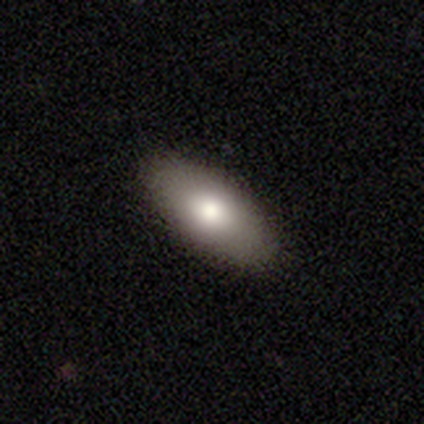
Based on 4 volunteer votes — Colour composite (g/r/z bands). It shows a smooth galaxy with no disk features (75%) that is in between round and cigar-shaped (100%). Merging: none (100%).